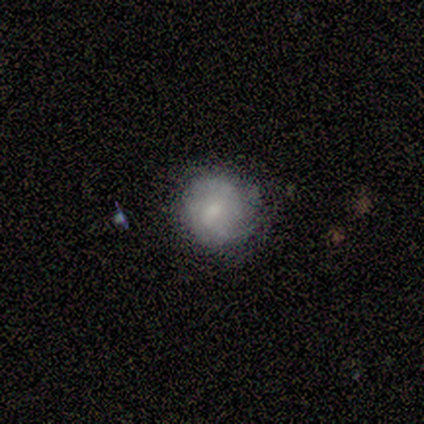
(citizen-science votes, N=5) smooth 60%, featured or disk 40%, star or artifact 0%. Down the decision tree: how rounded — round (100%); merging — none (80%).